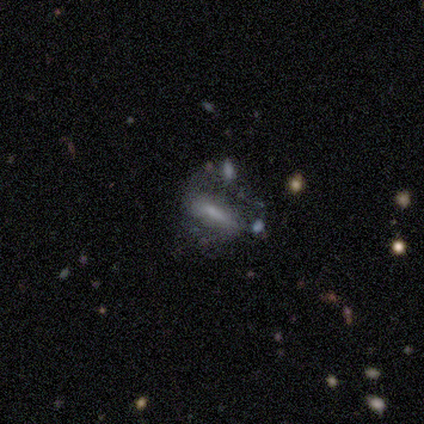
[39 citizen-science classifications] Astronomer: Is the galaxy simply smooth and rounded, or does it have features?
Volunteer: smooth — 54% (runner-up: featured or disk, 41%).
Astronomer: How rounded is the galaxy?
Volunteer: cigar-shaped — 52% (runner-up: in between, 48%).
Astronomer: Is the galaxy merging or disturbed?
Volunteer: major disturbance — 35% (runner-up: minor disturbance, 27%).